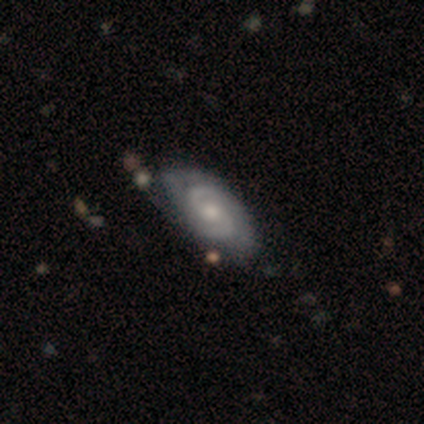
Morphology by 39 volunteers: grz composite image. It shows a featured or disk galaxy (87%) with no bar (59%), 2 (79%) tight (58%) spiral arms (97%) and a moderate central bulge (62%). Merging: none (36%).